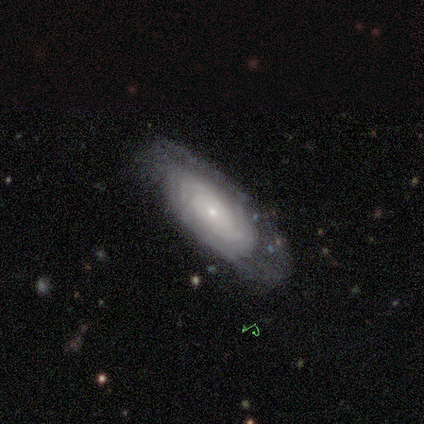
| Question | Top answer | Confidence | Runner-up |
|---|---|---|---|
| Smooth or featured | featured or disk | 78% | smooth (12%) |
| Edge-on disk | no | 97% | yes (3%) |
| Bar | no | 90% | weak (10%) |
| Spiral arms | yes | 84% | no (16%) |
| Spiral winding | tight | 77% | loose (15%) |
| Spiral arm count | can't tell | 62% | more than 4 (12%) |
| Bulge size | small | 65% | moderate (23%) |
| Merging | none | 70% | minor disturbance (19%) |